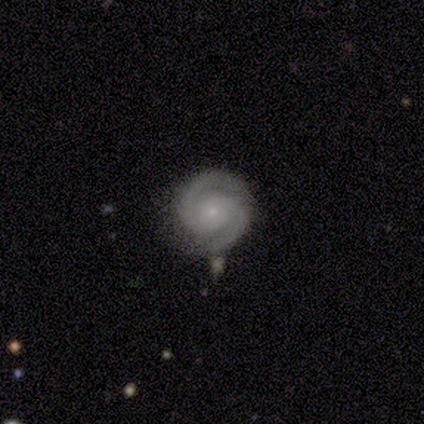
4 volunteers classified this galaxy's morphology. Smooth or featured? 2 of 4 (50%) said featured or disk. Edge-on disk? 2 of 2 (100%) said no. Bar? 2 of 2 (100%) said no. Spiral arms? 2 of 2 (100%) said yes. Spiral winding? 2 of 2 (100%) said tight. Spiral arm count? 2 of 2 (100%) said 2. Bulge size? 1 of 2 (50%, tied with none) said small. Merging? 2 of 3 (67%) said none.